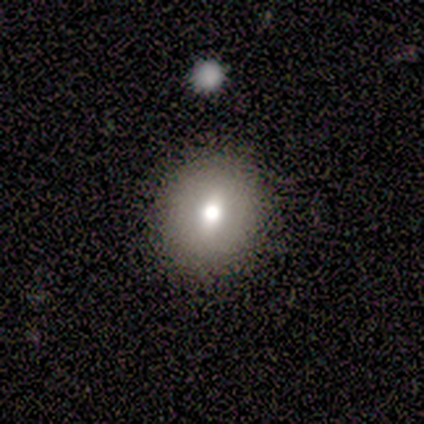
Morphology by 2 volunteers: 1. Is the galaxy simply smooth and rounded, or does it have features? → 50% smooth (tied), 50% featured or disk (tied), 0% star or artifact.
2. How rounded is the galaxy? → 100% round, 0% in between, 0% cigar-shaped.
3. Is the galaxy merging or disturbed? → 100% none, 0% minor disturbance, 0% major disturbance, 0% merger.